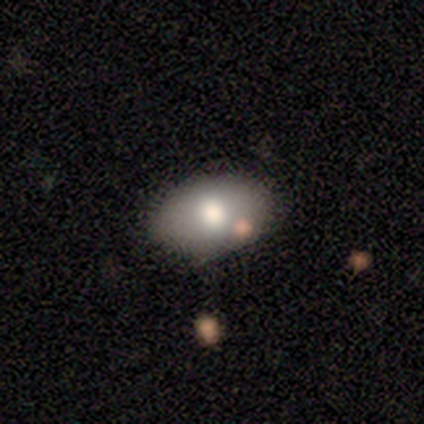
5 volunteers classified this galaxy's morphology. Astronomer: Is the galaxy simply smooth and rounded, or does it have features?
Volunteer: smooth — 80%.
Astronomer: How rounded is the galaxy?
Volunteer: in between — 100%.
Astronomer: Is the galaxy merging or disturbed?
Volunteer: none — 100%.